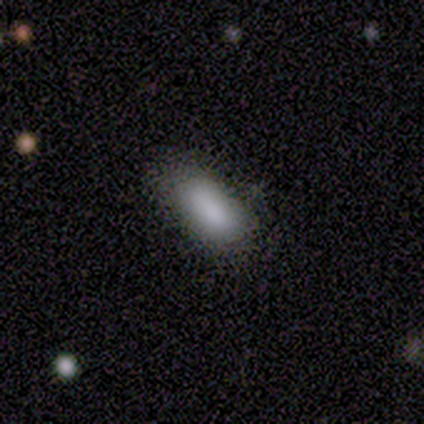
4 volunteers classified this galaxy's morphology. This is clearly a smooth galaxy (100%). How rounded: clearly in between (100%). Merging: likely minor disturbance (75%).